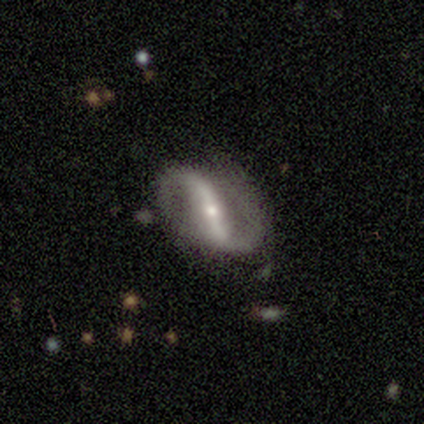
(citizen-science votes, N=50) This appears to be a featured or disk galaxy (92%) with a strong bar (80%), 2 (98%) loose (42%) spiral arms (98%) and a small central bulge (68%). Merging: none (64%).